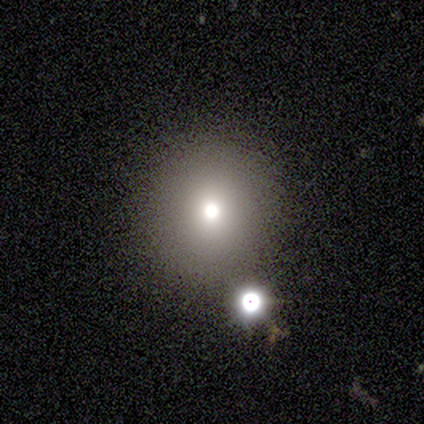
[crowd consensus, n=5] This appears to be a smooth galaxy with no disk features (60%) that is round (100%). Merging: none (100%).